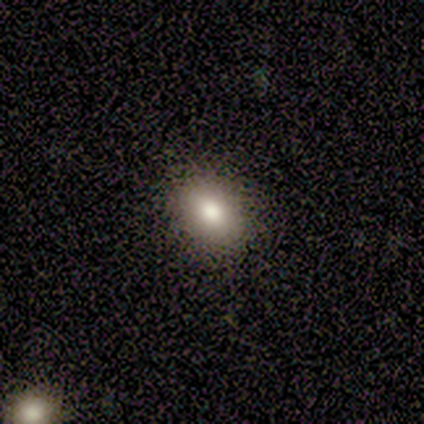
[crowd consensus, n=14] A smooth galaxy with no disk features (100%) that is in between round and cigar-shaped (71%).

Vote fractions:
- Smooth or featured? smooth: 100% / featured or disk: 0% / star or artifact: 0%
- How rounded? in between: 71% / round: 29% / cigar-shaped: 0%
- Merging? none: 79% / minor disturbance: 14% / major disturbance: 7% / merger: 0%